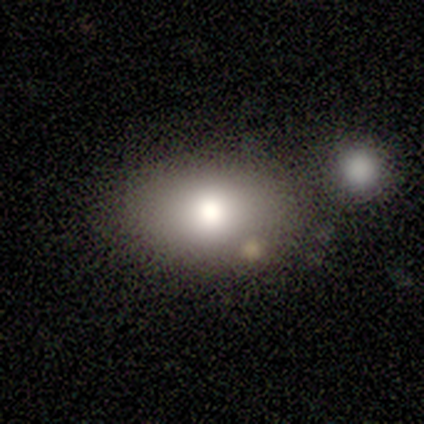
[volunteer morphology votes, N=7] A smooth galaxy with no disk features (86%) that is in between round and cigar-shaped (100%).

Vote fractions:
- Smooth or featured? smooth: 86% / star or artifact: 14% / featured or disk: 0%
- How rounded? in between: 100% / round: 0% / cigar-shaped: 0%
- Merging? none: 50% / minor disturbance: 33% / merger: 17% / major disturbance: 0%